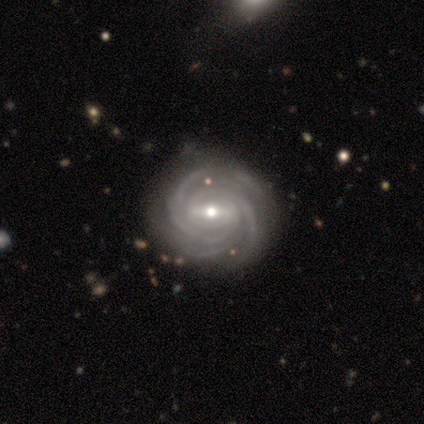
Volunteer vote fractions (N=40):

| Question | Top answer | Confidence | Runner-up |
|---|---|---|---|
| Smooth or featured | featured or disk | 92% | smooth (5%) |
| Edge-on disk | no | 100% | — |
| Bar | weak | 49% | strong (46%) |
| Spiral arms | yes | 100% | — |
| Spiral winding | tight | 78% | medium (19%) |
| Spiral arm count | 3 | 30% | 4 (22%) |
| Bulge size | moderate | 70% | small (24%) |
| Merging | none | 51% | major disturbance (8%) |